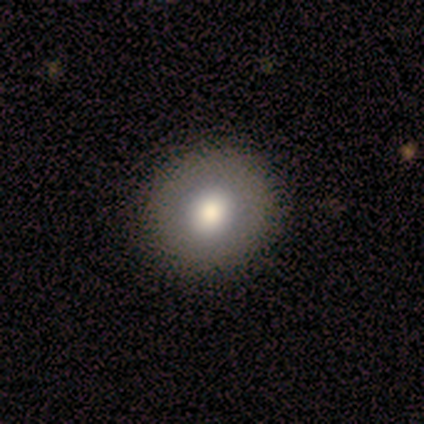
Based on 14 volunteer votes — Smooth or featured?
  - smooth: 100% *
  - featured or disk: 0%
  - star or artifact: 0%
How rounded?
  - round: 86% *
  - in between: 14%
  - cigar-shaped: 0%
Merging?
  - none: 93% *
  - major disturbance: 7%
  - minor disturbance: 0%
  - merger: 0%